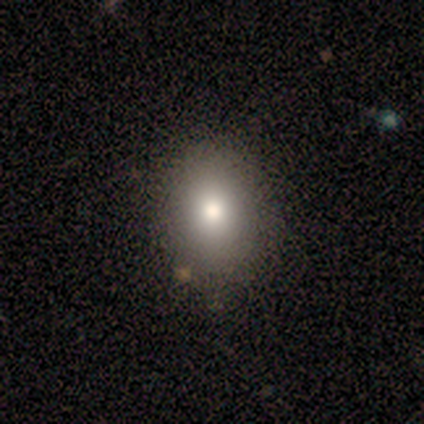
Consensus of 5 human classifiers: This appears to be a featured or disk galaxy (60%) with no bar (100%), no spiral arms (100%) and a large central bulge (33%, tied with moderate and small). Merging: none (80%).